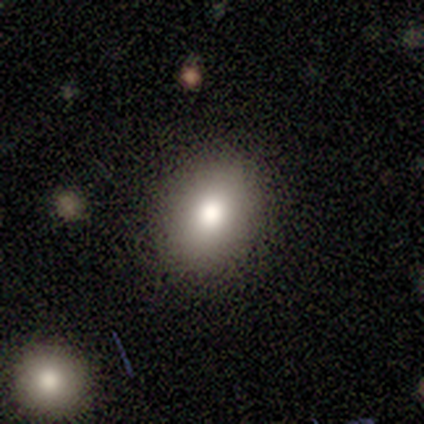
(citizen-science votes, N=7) This appears to be a smooth galaxy with no disk features (71%) that is in between round and cigar-shaped (80%). Merging: none (86%).